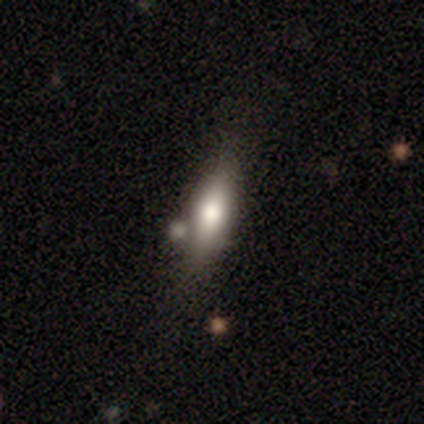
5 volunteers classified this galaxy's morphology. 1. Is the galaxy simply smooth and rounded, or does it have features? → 60% featured or disk, 40% smooth, 0% star or artifact.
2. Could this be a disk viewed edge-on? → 67% no, 33% yes.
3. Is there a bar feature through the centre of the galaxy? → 100% no, 0% strong, 0% weak.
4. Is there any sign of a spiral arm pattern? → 100% no, 0% yes.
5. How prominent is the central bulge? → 50% large (tied), 50% none (tied), 0% dominant, 0% moderate, 0% small.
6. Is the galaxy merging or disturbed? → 60% none, 20% minor disturbance, 20% merger, 0% major disturbance.